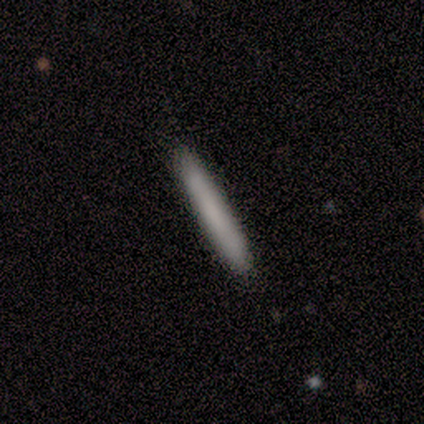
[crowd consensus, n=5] smooth-or-featured: smooth: 60% | featured or disk: 40% | star or artifact: 0%
  how-rounded: cigar-shaped: 100% | round: 0% | in between: 0%
  merging: none: 100% | minor disturbance: 0% | major disturbance: 0% | merger: 0%